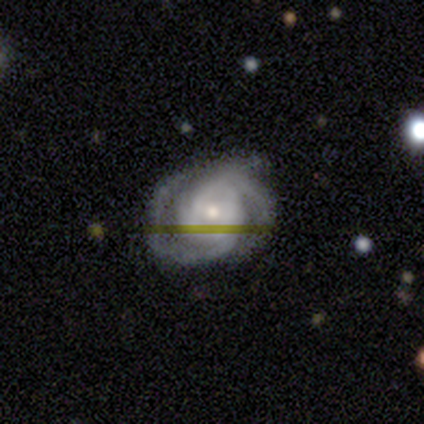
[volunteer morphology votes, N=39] Overall: featured or disk (85%). Edge-on disk: no (100%). Bar: no (58%; weak 36%). Spiral arms: yes (97%). Spiral arm count: 2 (72%). Spiral winding: tight (59%; medium 38%). Bulge size: moderate (48%; small 39%). Merging: none (57%; minor disturbance 32%).